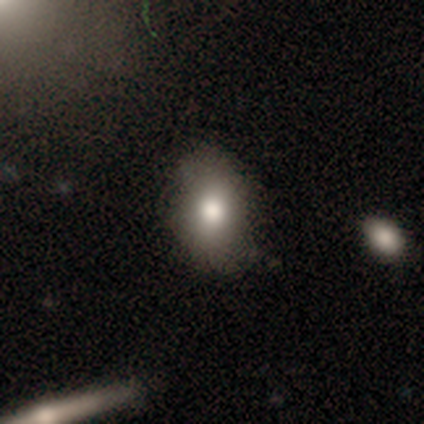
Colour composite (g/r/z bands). It shows a smooth galaxy with no disk features (80%) that is in between round and cigar-shaped (100%). Merging: none (80%).